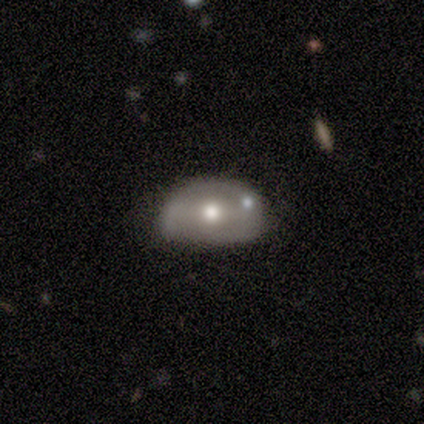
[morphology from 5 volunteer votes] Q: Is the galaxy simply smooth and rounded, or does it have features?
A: featured or disk — 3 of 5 (60%).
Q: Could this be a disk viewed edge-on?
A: no — 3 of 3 (100%).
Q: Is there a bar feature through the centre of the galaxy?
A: no — 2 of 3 (67%).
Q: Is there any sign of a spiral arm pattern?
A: no — 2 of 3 (67%).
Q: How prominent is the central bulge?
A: moderate — 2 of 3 (67%).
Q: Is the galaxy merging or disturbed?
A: none — 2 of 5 (40%).